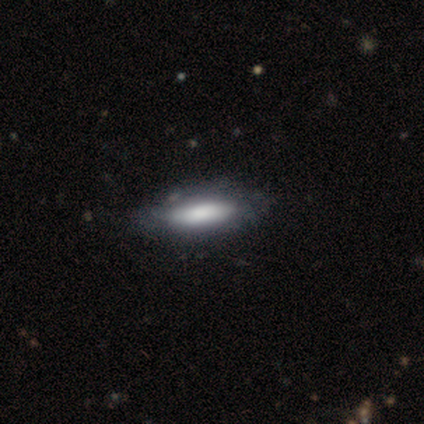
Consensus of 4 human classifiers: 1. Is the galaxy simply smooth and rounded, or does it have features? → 50% smooth, 25% featured or disk, 25% star or artifact.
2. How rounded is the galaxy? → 100% in between, 0% round, 0% cigar-shaped.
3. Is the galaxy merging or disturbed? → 100% none, 0% minor disturbance, 0% major disturbance, 0% merger.